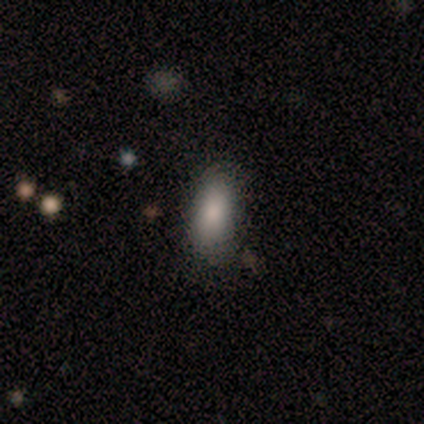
smooth 100%, featured or disk 0%, star or artifact 0%. Down the decision tree: how rounded — in between (100%); merging — none (80%).